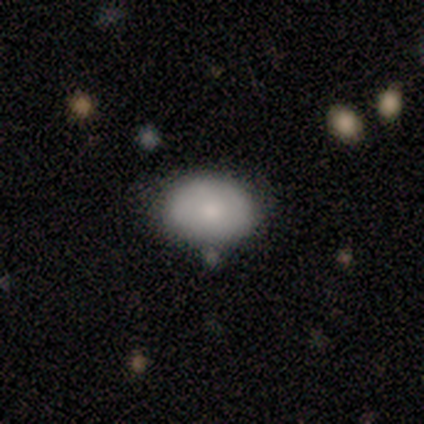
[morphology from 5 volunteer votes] A smooth galaxy with no disk features (60%) that is in between round and cigar-shaped (100%).

Vote fractions:
- Smooth or featured? smooth: 60% / featured or disk: 40% / star or artifact: 0%
- How rounded? in between: 100% / round: 0% / cigar-shaped: 0%
- Merging? none: 80% / minor disturbance: 20% / major disturbance: 0% / merger: 0%